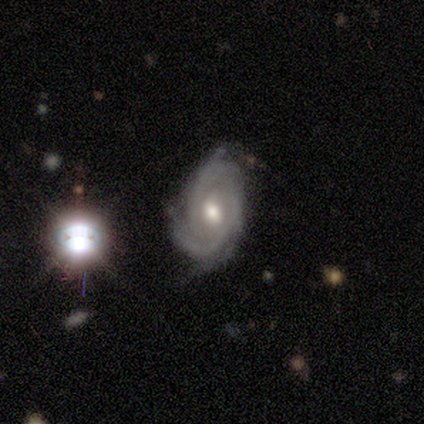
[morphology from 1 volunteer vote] Smooth or featured? featured or disk (100%)
Edge-on disk? no (100%)
Bar? strong (100%)
Spiral arms? yes (100%)
Spiral winding? tight (100%)
Spiral arm count? can't tell (100%)
Bulge size? moderate (100%)
Merging? none (100%)